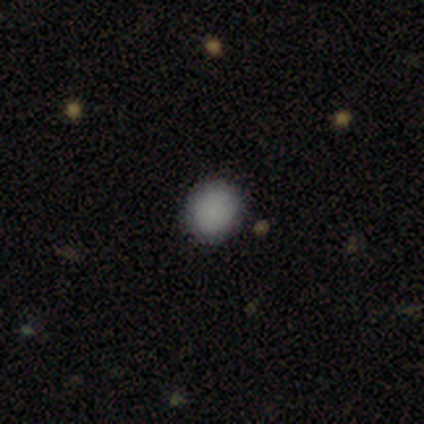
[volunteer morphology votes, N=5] smooth 100%, featured or disk 0%, star or artifact 0%. Down the decision tree: how rounded — round (60%); merging — none (80%).